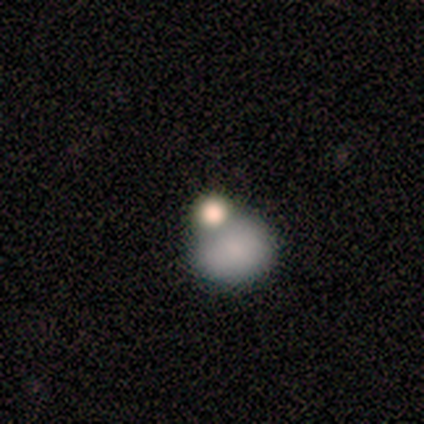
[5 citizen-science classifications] A smooth galaxy with no disk features (80%) that is round (100%).

Vote fractions:
- Smooth or featured? smooth: 80% / featured or disk: 20% / star or artifact: 0%
- How rounded? round: 100% / in between: 0% / cigar-shaped: 0%
- Merging? none: 40% (tied) / merger: 40% (tied) / minor disturbance: 20% / major disturbance: 0%